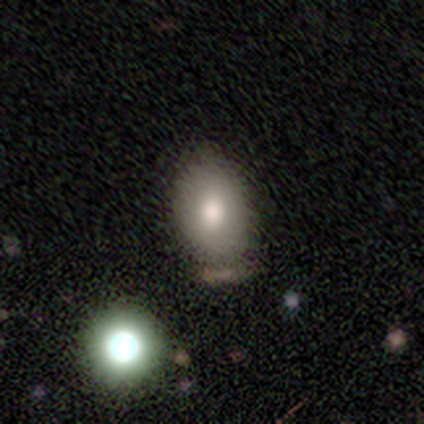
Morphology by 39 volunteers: A smooth galaxy with no disk features (79%) that is in between round and cigar-shaped (81%).

Vote fractions:
- Smooth or featured? smooth: 79% / star or artifact: 18% / featured or disk: 3%
- How rounded? in between: 81% / round: 19% / cigar-shaped: 0%
- Merging? none: 56% / minor disturbance: 22% / merger: 16% / major disturbance: 6%